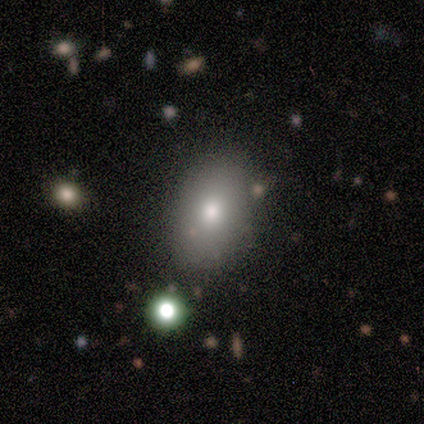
Morphology: type=smooth (80%); roundness=in between (100%); merging=none (100%).